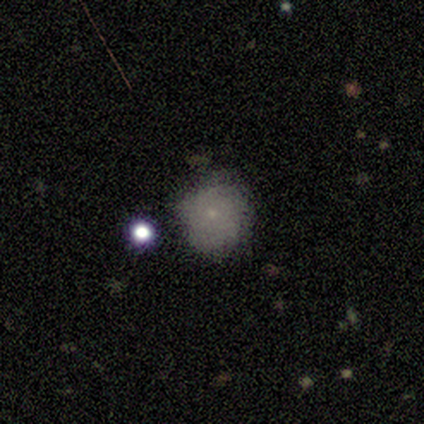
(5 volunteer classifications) Morphology: type=smooth (80%); roundness=round (100%); merging=none (75%).